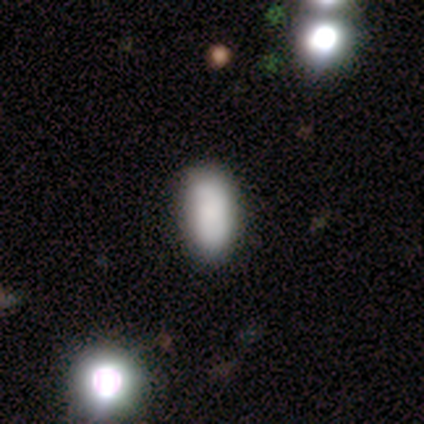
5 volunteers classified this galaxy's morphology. smooth 100%, featured or disk 0%, star or artifact 0%. Down the decision tree: how rounded — in between (100%); merging — none (60%).